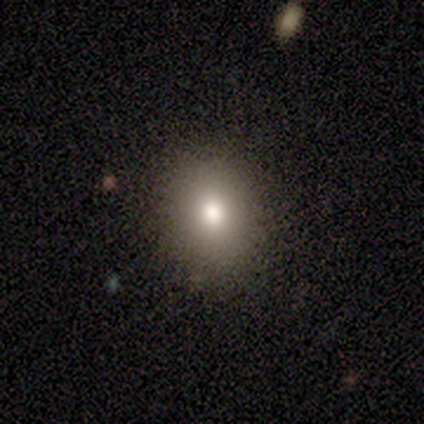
A smooth galaxy with no disk features (60%) that is round (67%). Merging: none (100%).